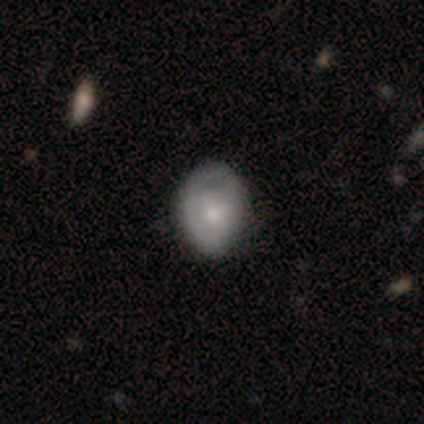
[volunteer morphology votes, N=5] A smooth galaxy with no disk features (80%) that is in between round and cigar-shaped (100%). Merging: minor disturbance (75%).